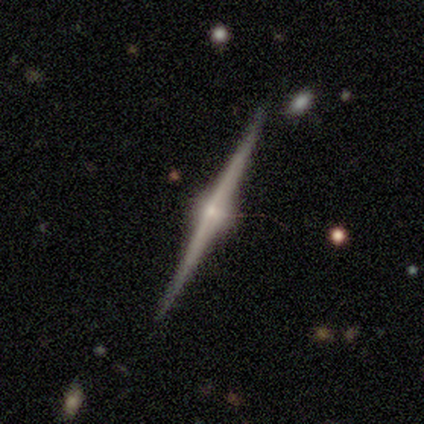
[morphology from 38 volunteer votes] smooth_or_featured: featured or disk (p=0.82) [alt: star or artifact p=0.11]
disk_edge_on: yes (p=1.00)
edge_on_bulge: rounded (p=0.97) [alt: none p=0.03]
merging: none (p=1.00)